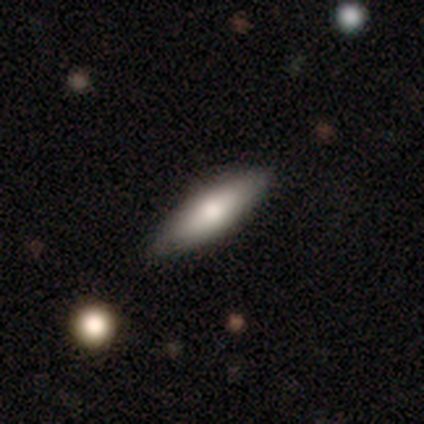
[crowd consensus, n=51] This appears to be a smooth galaxy with no disk features (67%) that is cigar-shaped (65%). Merging: none (85%).